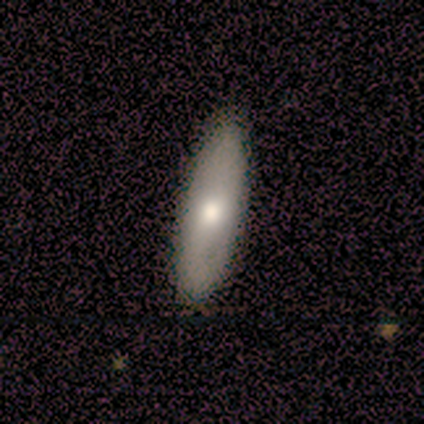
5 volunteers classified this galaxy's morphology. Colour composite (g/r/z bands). It shows a smooth galaxy with no disk features (60%) that is in between round and cigar-shaped (100%). Merging: none (80%).